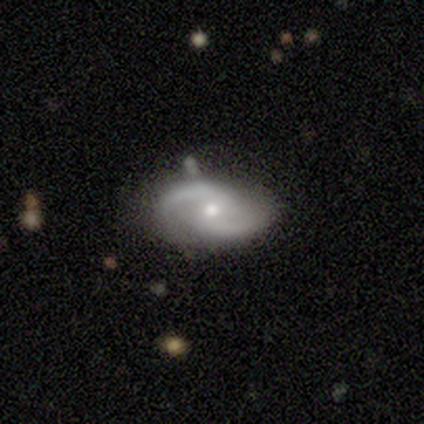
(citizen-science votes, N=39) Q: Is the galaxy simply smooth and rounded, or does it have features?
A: featured or disk — 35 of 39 (90%).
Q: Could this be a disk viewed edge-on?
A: no — 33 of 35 (94%).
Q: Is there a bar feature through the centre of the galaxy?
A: no — 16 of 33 (48%).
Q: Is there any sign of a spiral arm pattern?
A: yes — 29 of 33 (88%).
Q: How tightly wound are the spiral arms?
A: loose — 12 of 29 (41%).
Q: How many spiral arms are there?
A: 2 — 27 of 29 (93%).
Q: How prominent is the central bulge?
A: small — 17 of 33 (52%).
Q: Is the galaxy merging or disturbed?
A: none — 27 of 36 (75%).